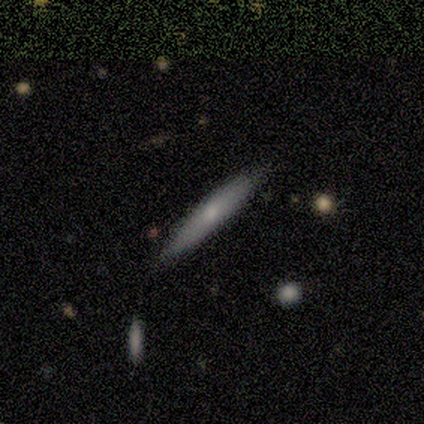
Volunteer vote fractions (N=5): Morphology: type=featured or disk (60%); edge-on=yes (67%); edge-on bulge=boxy (50%, tied with none); merging=none (80%).